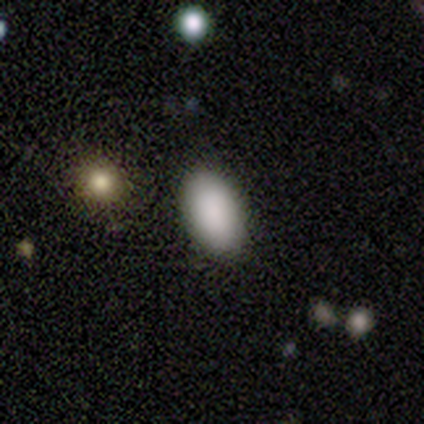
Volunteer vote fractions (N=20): This appears to be a smooth galaxy with no disk features (95%) that is in between round and cigar-shaped (100%). Merging: none (90%).